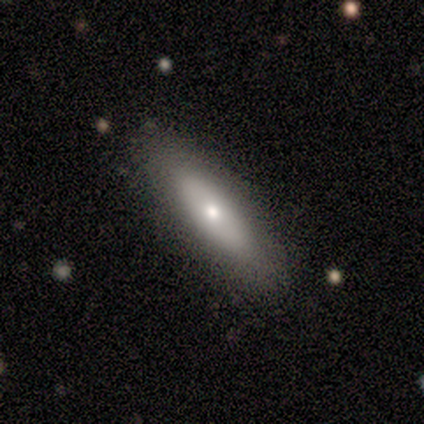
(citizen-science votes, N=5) Volunteers were most divided on "smooth or featured": smooth: 80%, featured or disk: 20%, star or artifact: 0%. More confident: how rounded — cigar-shaped (100%); merging — none (100%).